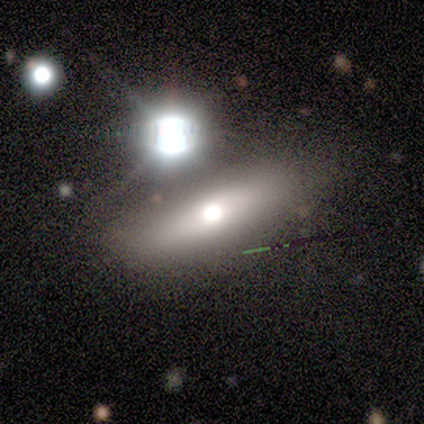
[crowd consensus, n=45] smooth-or-featured: smooth: 51% | featured or disk: 44% | star or artifact: 4%
  how-rounded: cigar-shaped: 57% | in between: 43% | round: 0%
  merging: none: 77% | minor disturbance: 16% | major disturbance: 5% | merger: 2%